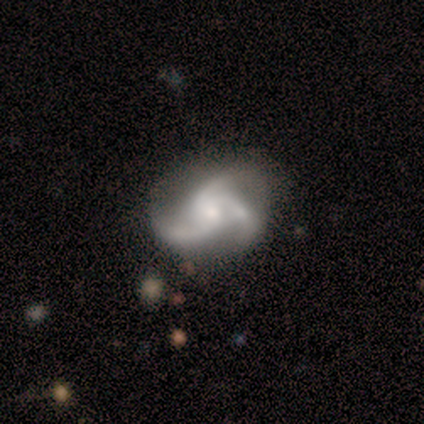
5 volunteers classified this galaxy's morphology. Smooth or featured? featured or disk (100%)
Edge-on disk? no (100%)
Bar? weak (60%)
Spiral arms? yes (80%)
Spiral winding? loose (75%)
Spiral arm count? 3 (100%)
Bulge size? moderate (60%)
Merging? none (60%)